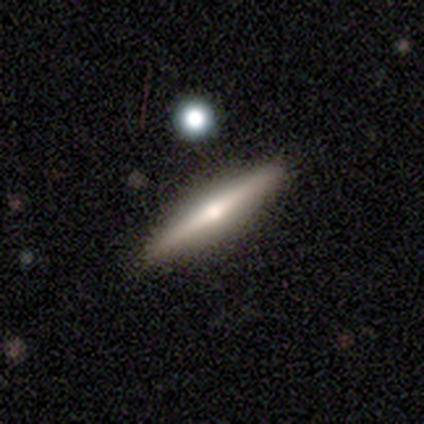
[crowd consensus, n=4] This appears to be a smooth galaxy with no disk features (50%, tied with featured or disk) that is in between round and cigar-shaped (50%, tied with cigar-shaped). Merging: none (100%).